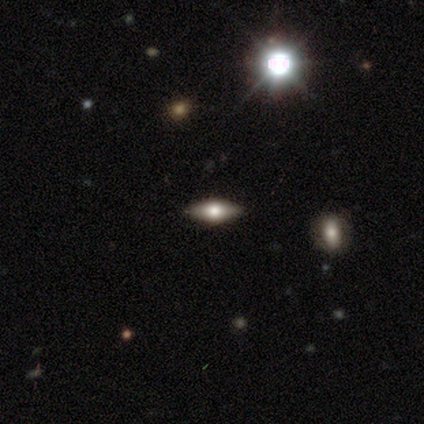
Smooth or featured?
  - smooth: 40% * (tied)
  - star or artifact: 40% * (tied)
  - featured or disk: 20%
How rounded?
  - in between: 50% * (tied)
  - cigar-shaped: 50% * (tied)
  - round: 0%
Merging?
  - none: 100% *
  - minor disturbance: 0%
  - major disturbance: 0%
  - merger: 0%